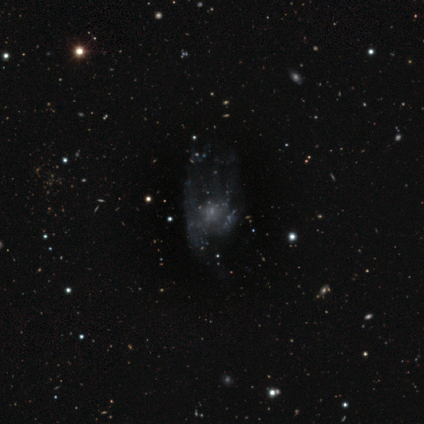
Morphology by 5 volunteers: Smooth or featured? 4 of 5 (80%) said featured or disk. Edge-on disk? 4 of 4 (100%) said no. Bar? 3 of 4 (75%) said no. Spiral arms? 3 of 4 (75%) said no. Bulge size? 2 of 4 (50%, tied with none) said small. Merging? 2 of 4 (50%) said major disturbance.